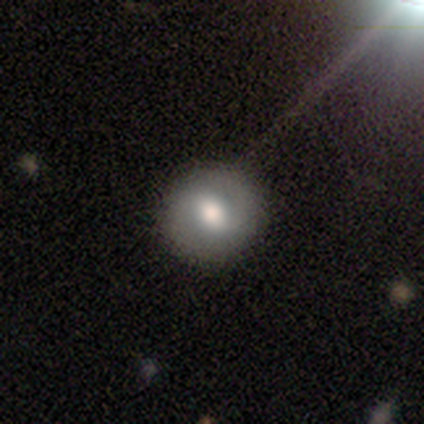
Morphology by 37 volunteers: Smooth or featured?
  - smooth: 51% *
  - featured or disk: 38%
  - star or artifact: 11%
How rounded?
  - round: 95% *
  - in between: 5%
  - cigar-shaped: 0%
Merging?
  - none: 97% *
  - minor disturbance: 3%
  - major disturbance: 0%
  - merger: 0%